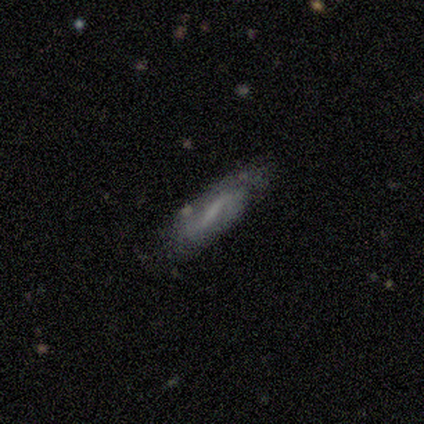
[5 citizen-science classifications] Smooth or featured? featured or disk (80%)
Edge-on disk? no (75%)
Bar? weak (67%)
Spiral arms? yes (100%)
Spiral winding? tight (33%, tied with medium and loose)
Spiral arm count? 1 (33%, tied with 3 and can't tell)
Bulge size? moderate (33%, tied with small and none)
Merging? minor disturbance (75%)